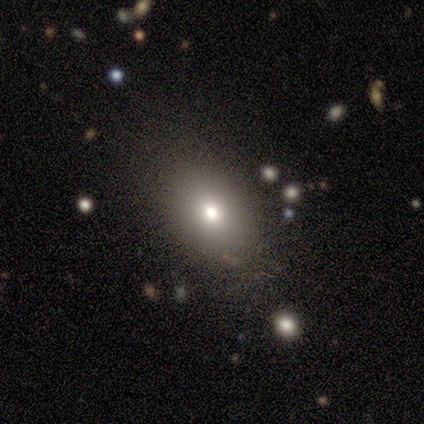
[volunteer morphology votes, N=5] A smooth galaxy with no disk features (100%) that is in between round and cigar-shaped (80%).

Vote fractions:
- Smooth or featured? smooth: 100% / featured or disk: 0% / star or artifact: 0%
- How rounded? in between: 80% / round: 20% / cigar-shaped: 0%
- Merging? none: 80% / minor disturbance: 20% / major disturbance: 0% / merger: 0%